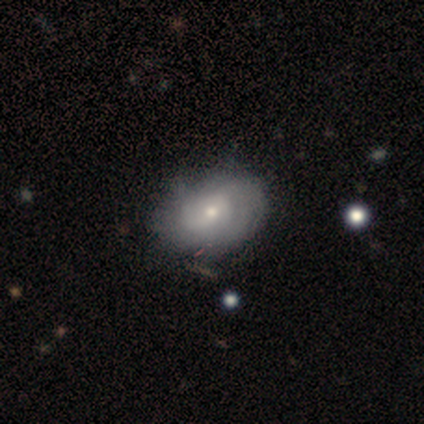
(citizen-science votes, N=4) Volunteers were most divided on "smooth or featured" (2-way tie): smooth: 50%, featured or disk: 50%, star or artifact: 0%. More confident: how rounded — in between (100%); merging — none (75%).